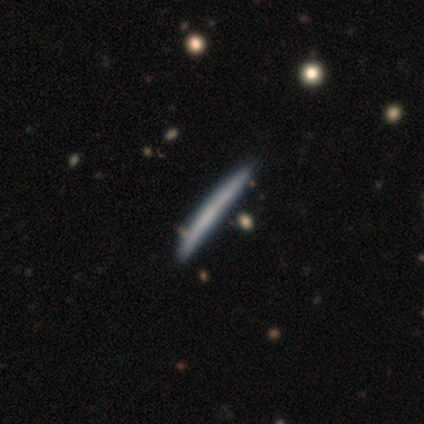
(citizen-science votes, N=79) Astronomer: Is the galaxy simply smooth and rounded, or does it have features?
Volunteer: smooth — 57% (runner-up: featured or disk, 39%).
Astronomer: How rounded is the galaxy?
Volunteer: cigar-shaped — 100%.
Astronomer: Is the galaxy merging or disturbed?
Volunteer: none — 45%.